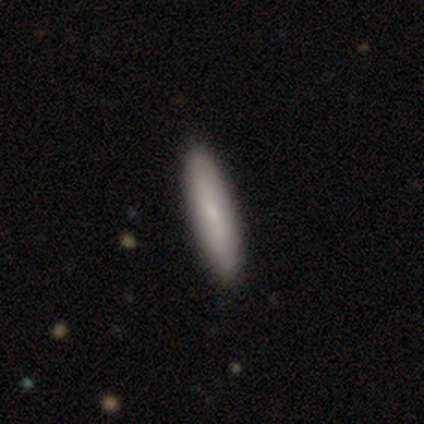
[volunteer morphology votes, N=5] A smooth galaxy with no disk features (60%) that is cigar-shaped (67%).

Vote fractions:
- Smooth or featured? smooth: 60% / featured or disk: 40% / star or artifact: 0%
- How rounded? cigar-shaped: 67% / in between: 33% / round: 0%
- Merging? none: 100% / minor disturbance: 0% / major disturbance: 0% / merger: 0%